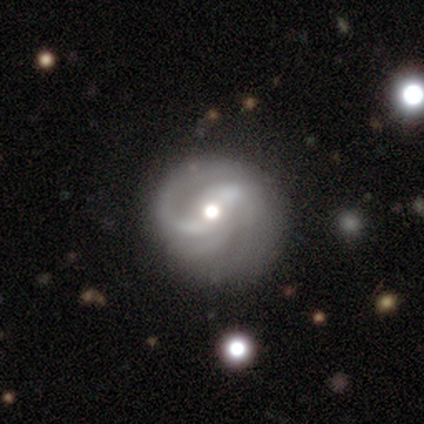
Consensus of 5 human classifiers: Morphology: type=featured or disk (100%); edge-on=no (100%); bar=weak (60%); spiral arms=yes (100%); winding=tight (40%, tied with loose); arm count=2 (40%, tied with can't tell); bulge=moderate (100%); merging=none (80%).